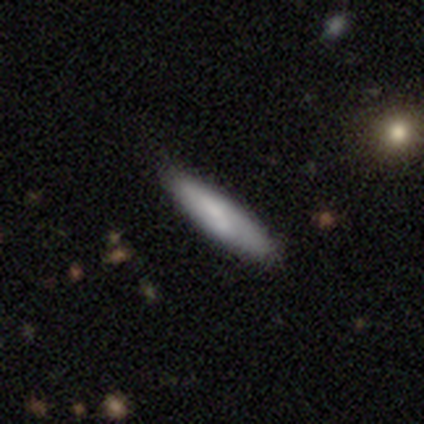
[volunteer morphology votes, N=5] smooth-or-featured: featured or disk: 60% | smooth: 40% | star or artifact: 0%
  disk-edge-on: yes: 100% | no: 0%
    edge-on-bulge: none: 100% | boxy: 0% | rounded: 0%
  merging: none: 80% | merger: 20% | minor disturbance: 0% | major disturbance: 0%